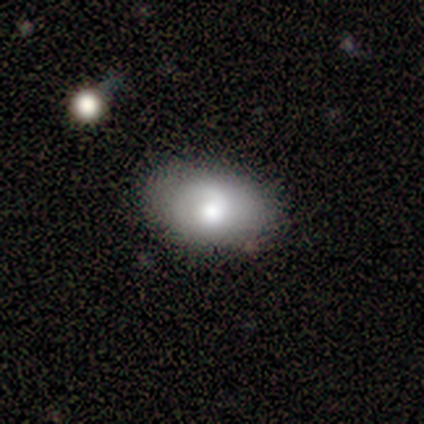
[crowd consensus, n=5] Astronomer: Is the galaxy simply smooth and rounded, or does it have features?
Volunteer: featured or disk — 80%.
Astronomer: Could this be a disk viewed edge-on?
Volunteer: no — 100%.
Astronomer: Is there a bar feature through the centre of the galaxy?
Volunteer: no — 75%.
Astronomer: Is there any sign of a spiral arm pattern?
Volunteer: yes — 100%.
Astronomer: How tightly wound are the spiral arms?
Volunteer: loose — 75%.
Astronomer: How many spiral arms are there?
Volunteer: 1 — 100%.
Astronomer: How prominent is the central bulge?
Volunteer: moderate — 50%.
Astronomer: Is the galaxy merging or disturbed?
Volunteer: none — 80%.